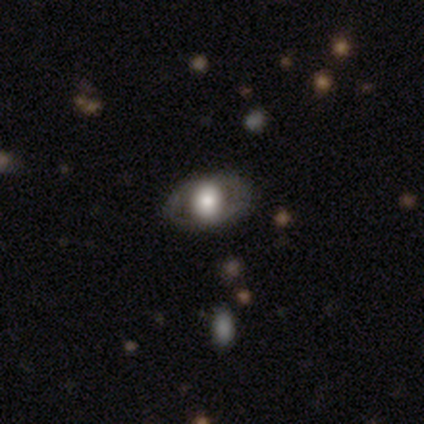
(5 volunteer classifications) Smooth or featured? smooth (100%)
How rounded? round (60%)
Merging? none (100%)